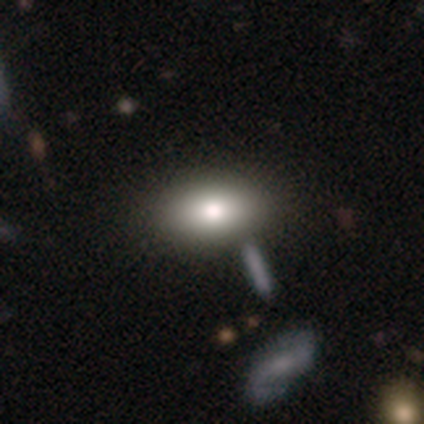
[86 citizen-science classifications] Smooth or featured? 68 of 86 (79%) said smooth. How rounded? 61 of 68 (90%) said in between. Merging? 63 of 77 (82%) said none.